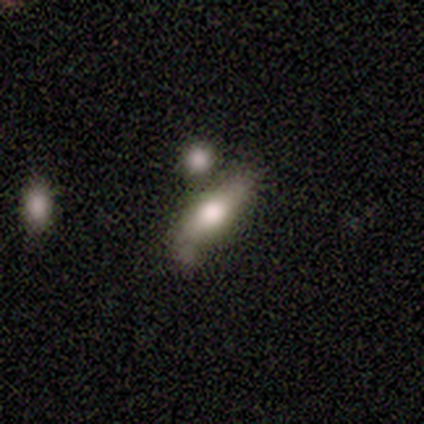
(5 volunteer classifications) Smooth or featured?
  - smooth: 60% *
  - featured or disk: 40%
  - star or artifact: 0%
How rounded?
  - cigar-shaped: 67% *
  - in between: 33%
  - round: 0%
Merging?
  - none: 40% *
  - minor disturbance: 20%
  - major disturbance: 20%
  - merger: 20%